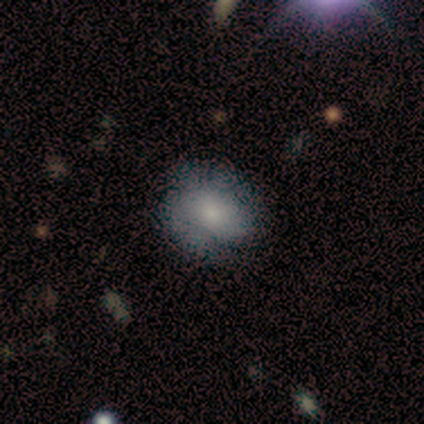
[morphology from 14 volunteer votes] Q: Smooth or featured?
A: smooth (57%); runner-up: featured or disk (43%)
Q: How rounded?
A: in between (62%); runner-up: round (38%)
Q: Merging?
A: none (57%); runner-up: minor disturbance (29%)